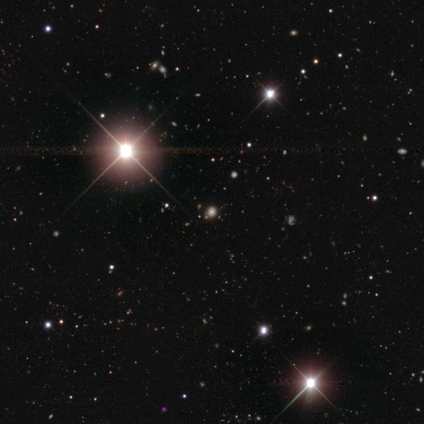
Smooth or featured?
  - star or artifact: 50% *
  - smooth: 46%
  - featured or disk: 4%